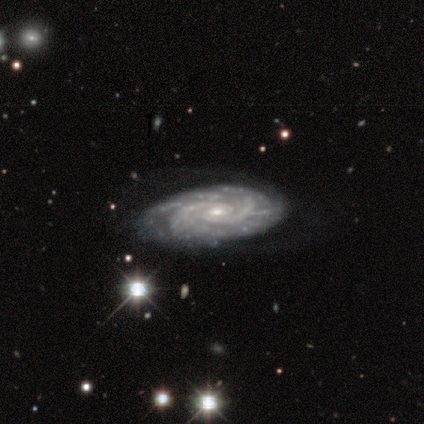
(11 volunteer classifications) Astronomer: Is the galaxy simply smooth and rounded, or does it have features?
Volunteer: featured or disk — 82%.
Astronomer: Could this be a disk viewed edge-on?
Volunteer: no — 100%.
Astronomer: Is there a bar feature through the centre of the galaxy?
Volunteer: no — 89%.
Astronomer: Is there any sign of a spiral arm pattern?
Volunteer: yes — 100%.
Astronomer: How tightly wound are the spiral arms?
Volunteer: tight — 78%.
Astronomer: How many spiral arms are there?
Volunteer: can't tell — 33% (runner-up: 2, 22%).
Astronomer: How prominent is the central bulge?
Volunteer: small — 56% (runner-up: moderate, 44%).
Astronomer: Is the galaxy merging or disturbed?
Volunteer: none — 73%.